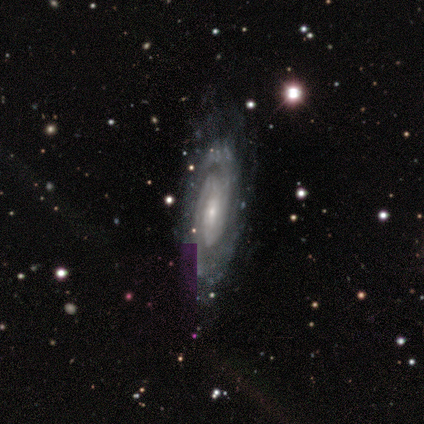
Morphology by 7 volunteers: Smooth or featured: featured or disk — 100%
Edge-on disk: no — 57% (yes — 43%)
Bar: weak — 75% (no — 25%)
Spiral arms: yes — 100%
Spiral winding: tight — 75% (medium — 25%)
Spiral arm count: can't tell — 75% (2 — 25%)
Bulge size: small — 75% (moderate — 25%)
Merging: none — 57% (minor disturbance — 29%)